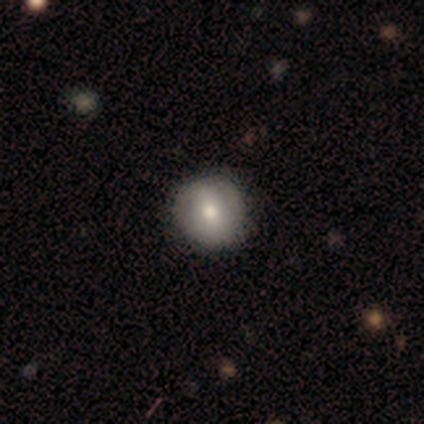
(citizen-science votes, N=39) smooth 56%, featured or disk 36%, star or artifact 8%. Down the decision tree: how rounded — round (91%); merging — none (61%).